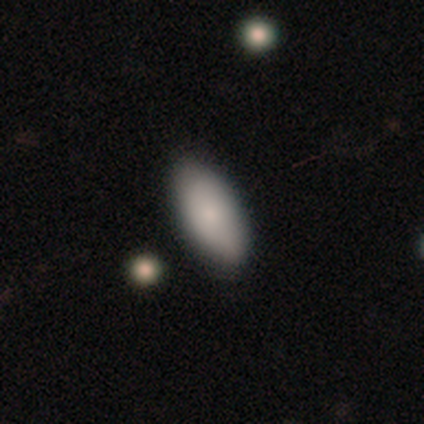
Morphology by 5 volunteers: A smooth galaxy with no disk features (100%) that is in between round and cigar-shaped (100%).

Vote fractions:
- Smooth or featured? smooth: 100% / featured or disk: 0% / star or artifact: 0%
- How rounded? in between: 100% / round: 0% / cigar-shaped: 0%
- Merging? none: 100% / minor disturbance: 0% / major disturbance: 0% / merger: 0%